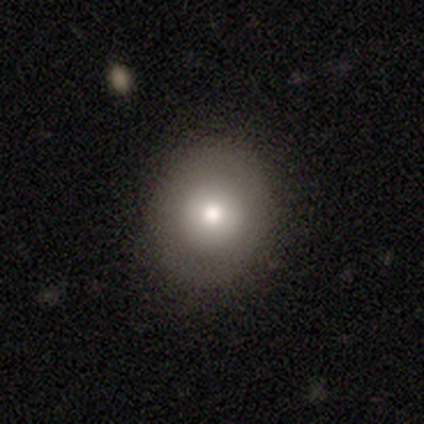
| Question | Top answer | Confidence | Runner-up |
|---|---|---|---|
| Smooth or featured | smooth | 70% | featured or disk (30%) |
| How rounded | round | 86% | in between (14%) |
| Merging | none | 90% | minor disturbance (10%) |